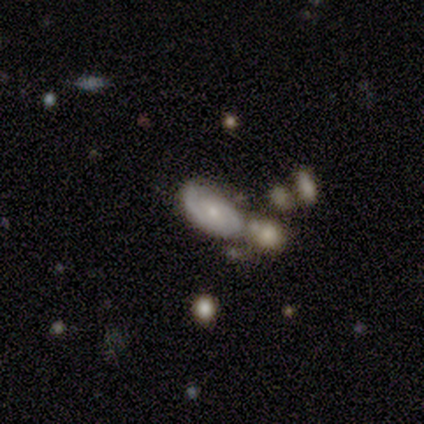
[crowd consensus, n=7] smooth_or_featured: featured or disk (p=0.57) [alt: smooth p=0.43]
disk_edge_on: no (p=1.00)
bar: no (p=0.75) [alt: weak p=0.25]
has_spiral_arms: yes (p=1.00)
spiral_winding: tight (p=0.50) [alt: medium p=0.25]
spiral_arm_count: 2 (p=0.75) [alt: can't tell p=0.25]
bulge_size: small (p=0.75) [alt: moderate p=0.25]
merging: none (p=0.57) [alt: merger p=0.29]